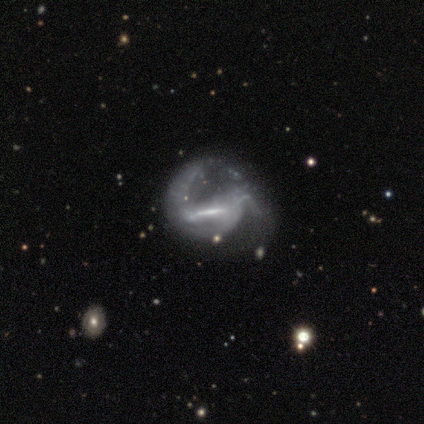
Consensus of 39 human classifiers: featured or disk 87%, smooth 10%, star or artifact 3%. Down the decision tree: edge-on disk — no (91%); bar — strong (68%); spiral arms — yes (77%); spiral arm count — 2 (58%); spiral winding — loose (50%); bulge size — none (39%); merging — major disturbance (63%).